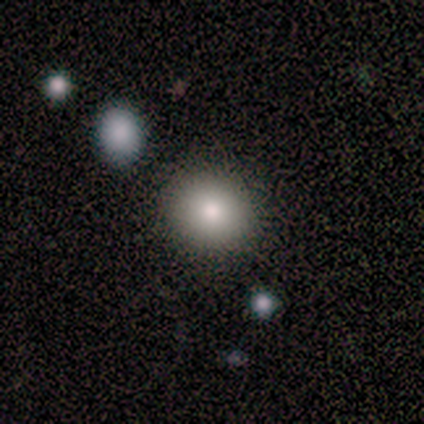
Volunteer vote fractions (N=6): smooth_or_featured: smooth (p=0.50) [alt: featured or disk p=0.33]
how_rounded: round (p=0.67) [alt: in between p=0.33]
merging: none (p=1.00)